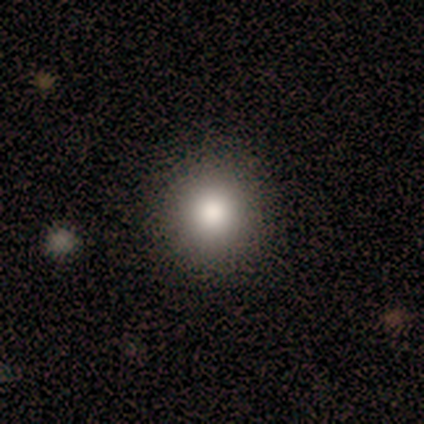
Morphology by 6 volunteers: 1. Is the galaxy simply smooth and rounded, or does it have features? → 50% smooth, 33% featured or disk, 17% star or artifact.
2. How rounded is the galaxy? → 67% round, 33% in between, 0% cigar-shaped.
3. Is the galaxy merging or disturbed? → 100% none, 0% minor disturbance, 0% major disturbance, 0% merger.